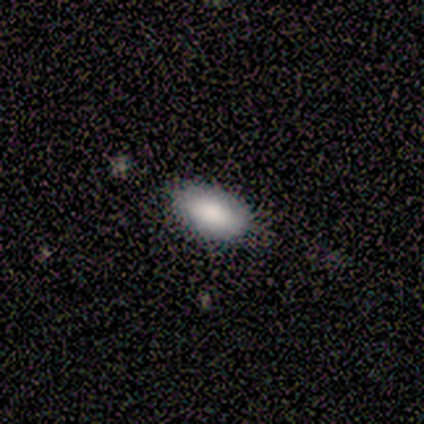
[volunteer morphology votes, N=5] A smooth galaxy with no disk features (80%) that is in between round and cigar-shaped (100%). Merging: none (75%).